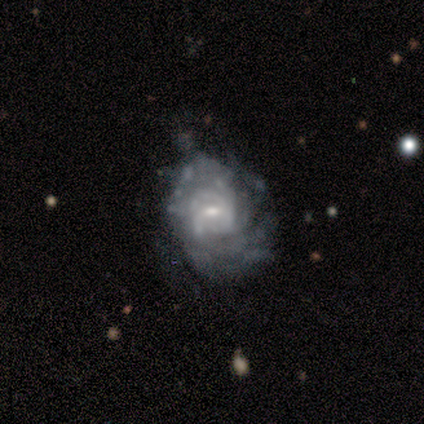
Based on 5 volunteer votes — Volunteers were most divided on "bar" (2-way tie): weak: 40%, no: 40%, strong: 20%; "spiral winding" (2-way tie): tight: 50%, medium: 50%, loose: 0%. More confident: smooth or featured — featured or disk (100%); edge-on disk — no (100%); spiral arms — yes (80%); spiral arm count — can't tell (75%); bulge size — moderate (60%); merging — none (60%).